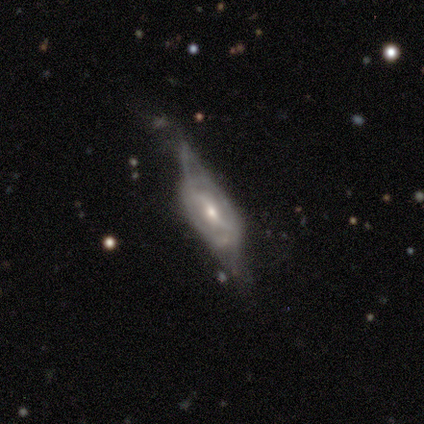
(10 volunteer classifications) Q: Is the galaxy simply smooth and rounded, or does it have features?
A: featured or disk — 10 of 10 (100%).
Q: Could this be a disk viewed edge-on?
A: no — 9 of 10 (90%).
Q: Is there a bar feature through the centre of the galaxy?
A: weak — 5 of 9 (56%).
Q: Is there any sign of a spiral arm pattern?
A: yes — 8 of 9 (89%).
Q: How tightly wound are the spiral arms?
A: loose — 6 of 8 (75%).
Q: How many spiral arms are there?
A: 2 — 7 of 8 (88%).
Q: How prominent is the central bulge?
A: moderate — 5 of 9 (56%).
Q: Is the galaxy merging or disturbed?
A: major disturbance — 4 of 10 (40%).